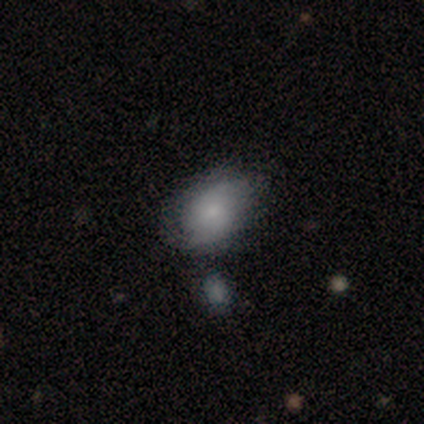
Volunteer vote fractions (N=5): Volunteers were most divided on "merging": none: 60%, major disturbance: 20%, merger: 20%, minor disturbance: 0%. More confident: smooth or featured — smooth (80%); how rounded — in between (75%).